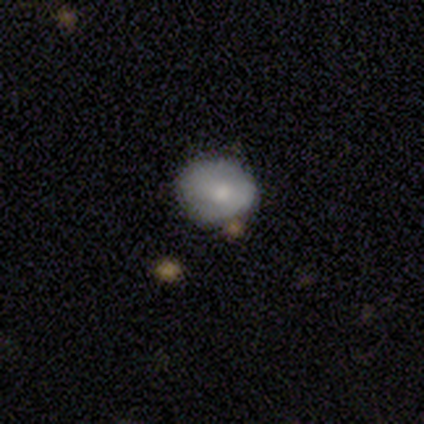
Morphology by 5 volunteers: Smooth or featured? smooth (80%)
How rounded? round (75%)
Merging? minor disturbance (40%, tied with merger)